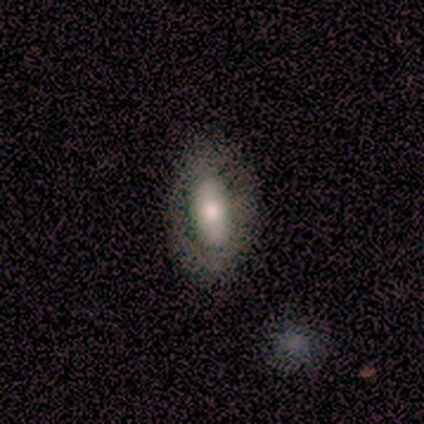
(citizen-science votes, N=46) Smooth or featured?
  - featured or disk: 50% *
  - smooth: 39%
  - star or artifact: 11%
Edge-on disk?
  - no: 87% *
  - yes: 13%
Bar?
  - strong: 60% *
  - no: 30%
  - weak: 10%
Spiral arms?
  - no: 75% *
  - yes: 25%
Bulge size?
  - moderate: 65% *
  - large: 20%
  - none: 10%
  - small: 5%
  - dominant: 0%
Merging?
  - none: 73% *
  - minor disturbance: 22%
  - major disturbance: 2%
  - merger: 2%